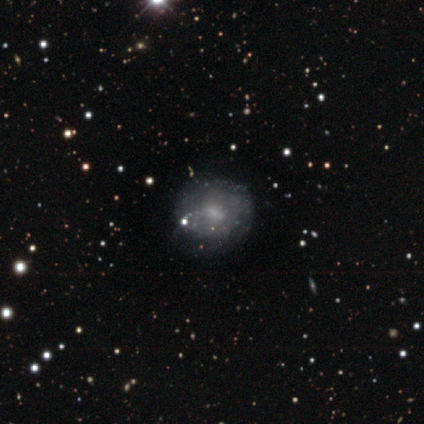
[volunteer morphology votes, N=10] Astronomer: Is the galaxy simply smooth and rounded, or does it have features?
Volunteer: featured or disk — 60%.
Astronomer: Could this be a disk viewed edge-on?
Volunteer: no — 100%.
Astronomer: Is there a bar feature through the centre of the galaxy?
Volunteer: weak — 67%.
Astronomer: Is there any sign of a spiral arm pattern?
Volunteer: yes — 83%.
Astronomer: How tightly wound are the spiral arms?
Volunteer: medium — 40%, tied with loose at 40%.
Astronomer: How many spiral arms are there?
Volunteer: can't tell — 60%.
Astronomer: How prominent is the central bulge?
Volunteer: small — 67%.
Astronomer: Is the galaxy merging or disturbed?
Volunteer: none — 67%.